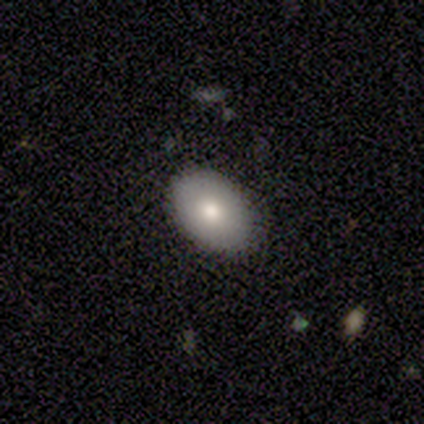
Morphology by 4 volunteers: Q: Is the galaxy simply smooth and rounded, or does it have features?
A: smooth — 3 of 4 (75%).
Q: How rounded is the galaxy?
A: in between — 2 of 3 (67%).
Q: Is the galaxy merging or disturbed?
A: none — 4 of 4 (100%).